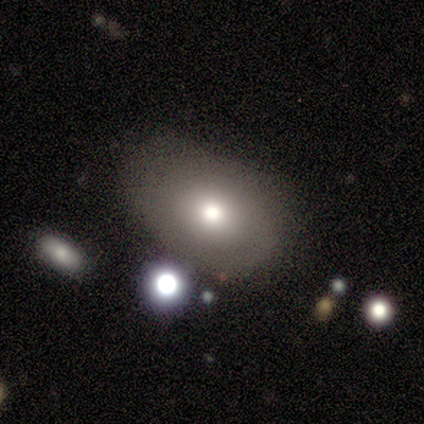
This is likely a smooth galaxy (60%). How rounded: likely in between (67%). Merging: marginally minor disturbance (40%, tied with major disturbance).